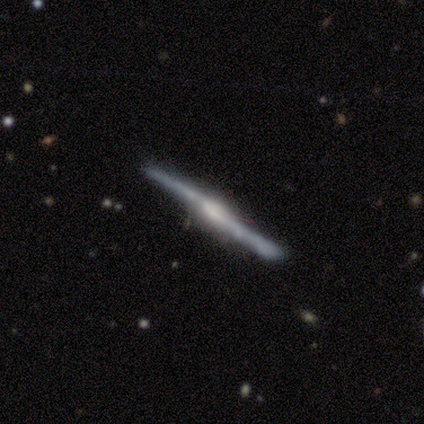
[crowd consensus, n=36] A featured or disk galaxy (83%) viewed edge-on (100%) with a rounded central bulge (50%). Merging: none (77%).